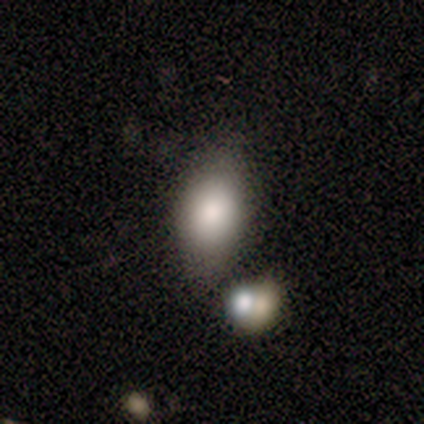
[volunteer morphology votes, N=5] smooth 60%, featured or disk 20%, star or artifact 20%. Down the decision tree: how rounded — in between (67%); merging — none (50%).